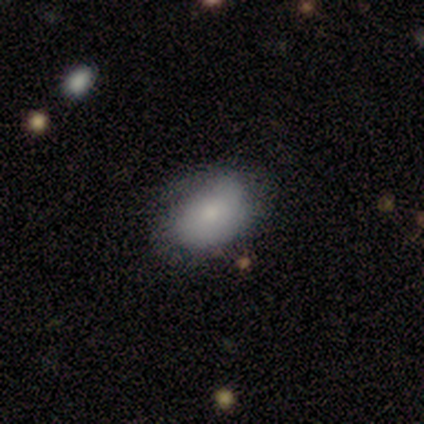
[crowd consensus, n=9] Overall: smooth (67%; featured or disk 33%). How rounded: in between (100%). Merging: none (78%).